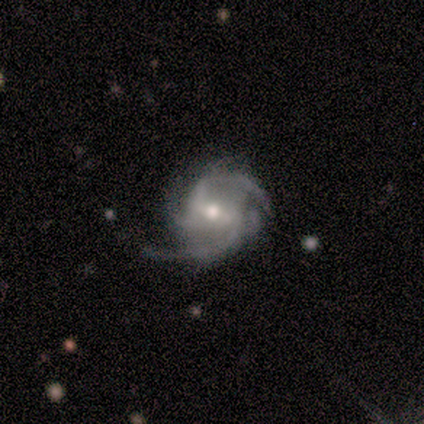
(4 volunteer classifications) Smooth or featured?
  - featured or disk: 100% *
  - smooth: 0%
  - star or artifact: 0%
Edge-on disk?
  - no: 100% *
  - yes: 0%
Bar?
  - strong: 75% *
  - weak: 25%
  - no: 0%
Spiral arms?
  - yes: 100% *
  - no: 0%
Spiral winding?
  - medium: 100% *
  - tight: 0%
  - loose: 0%
Spiral arm count?
  - 2: 100% *
  - 1: 0%
  - 3: 0%
  - 4: 0%
  - more than 4: 0%
  - can't tell: 0%
Bulge size?
  - moderate: 100% *
  - dominant: 0%
  - large: 0%
  - small: 0%
  - none: 0%
Merging?
  - none: 50% * (tied)
  - minor disturbance: 50% * (tied)
  - major disturbance: 0%
  - merger: 0%